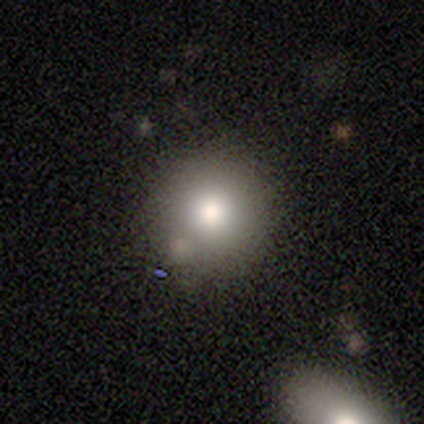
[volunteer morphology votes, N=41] Smooth or featured? smooth (93%)
How rounded? round (92%)
Merging? none (62%)